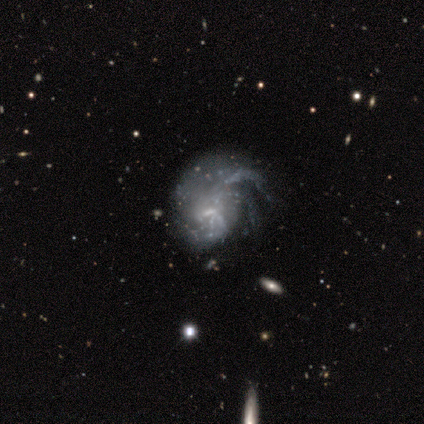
Morphology: type=featured or disk (80%); edge-on=no (100%); bar=no (75%); spiral arms=yes (100%); winding=loose (75%); arm count=2 (50%); bulge=small (75%); merging=minor disturbance (50%).